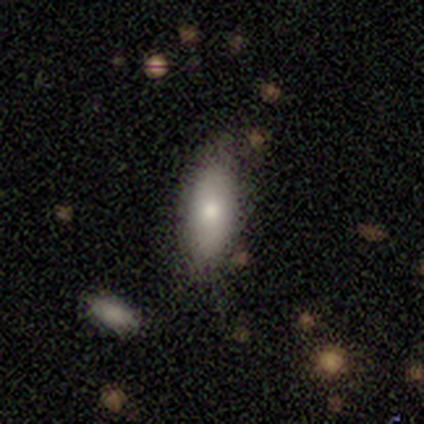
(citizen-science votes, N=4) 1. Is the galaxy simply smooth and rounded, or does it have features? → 75% smooth, 25% star or artifact, 0% featured or disk.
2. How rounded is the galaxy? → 100% in between, 0% round, 0% cigar-shaped.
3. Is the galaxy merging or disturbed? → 67% none, 33% minor disturbance, 0% major disturbance, 0% merger.